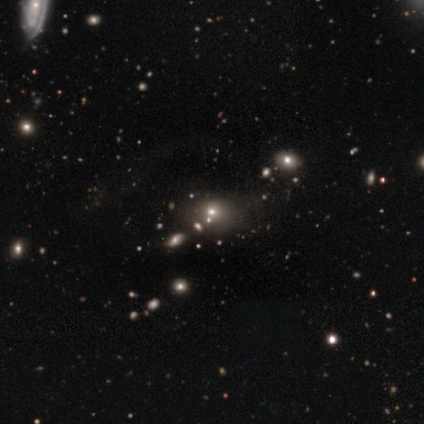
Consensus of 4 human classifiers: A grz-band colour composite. It shows a smooth galaxy with no disk features (75%) that is round (100%). Merging: none (100%).